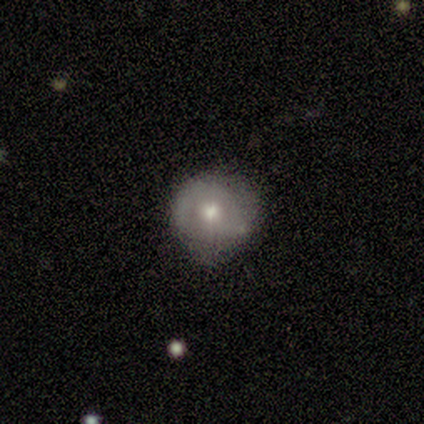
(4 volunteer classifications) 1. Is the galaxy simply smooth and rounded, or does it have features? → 75% smooth, 25% featured or disk, 0% star or artifact.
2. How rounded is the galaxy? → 100% round, 0% in between, 0% cigar-shaped.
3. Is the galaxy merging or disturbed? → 50% major disturbance, 25% none, 25% minor disturbance, 0% merger.